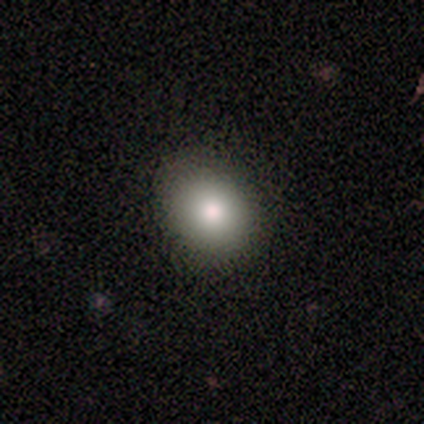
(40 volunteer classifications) Smooth or featured: smooth — 92% (featured or disk — 8%)
How rounded: round — 51% (in between — 49%)
Merging: none — 45% (minor disturbance — 8%)